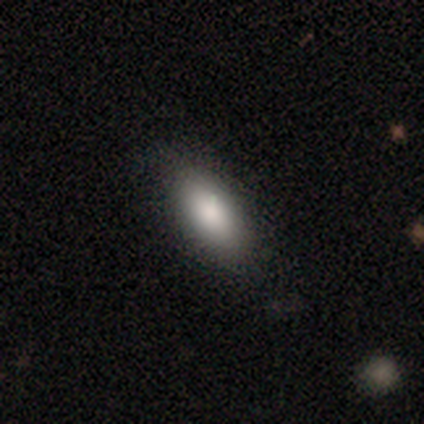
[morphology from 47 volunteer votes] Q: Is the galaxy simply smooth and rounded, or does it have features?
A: smooth — 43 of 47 (91%).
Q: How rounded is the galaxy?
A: in between — 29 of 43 (67%).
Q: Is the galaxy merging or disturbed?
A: none — 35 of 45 (78%).